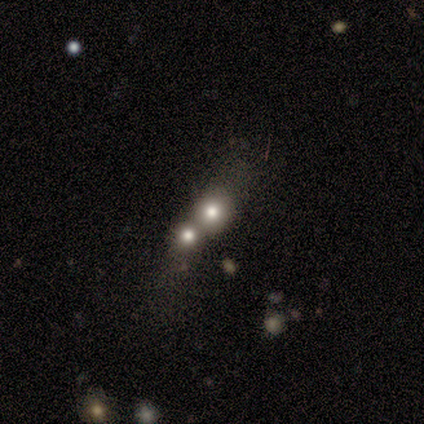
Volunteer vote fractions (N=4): Smooth or featured: smooth — 75% (featured or disk — 25%)
How rounded: round — 100%
Merging: merger — 100%